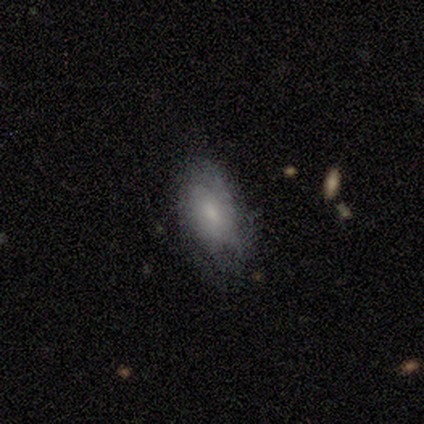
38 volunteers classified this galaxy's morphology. type=smooth (61%); roundness=in between (96%); merging=none (53%).